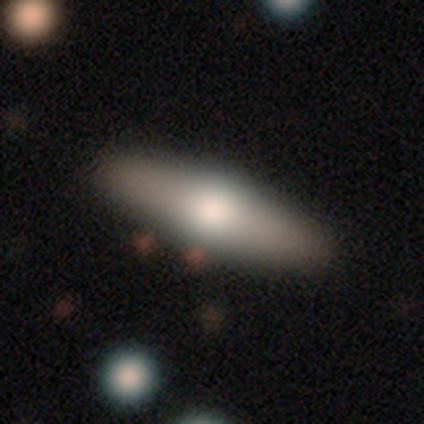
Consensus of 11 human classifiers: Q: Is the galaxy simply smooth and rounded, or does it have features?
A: smooth — 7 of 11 (64%).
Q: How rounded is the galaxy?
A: cigar-shaped — 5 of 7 (71%).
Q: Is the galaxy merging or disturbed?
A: none — 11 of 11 (100%).